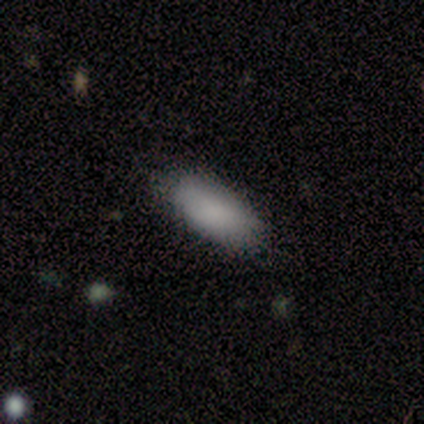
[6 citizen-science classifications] A smooth galaxy with no disk features (67%) that is in between round and cigar-shaped (75%). Merging: none (60%).